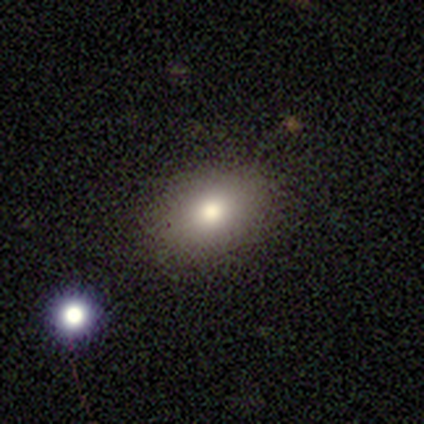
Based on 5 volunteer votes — This is clearly a smooth galaxy (80%). How rounded: clearly in between (100%). Merging: clearly none (100%).